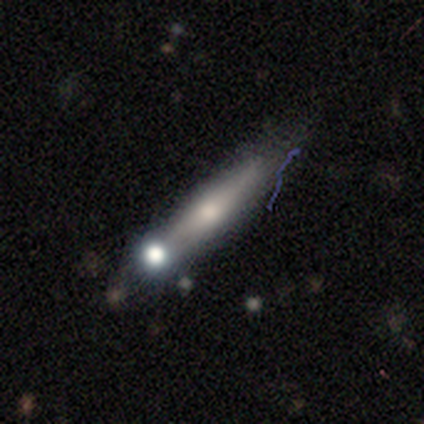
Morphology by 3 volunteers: A smooth galaxy with no disk features (67%) that is in between round and cigar-shaped (50%, tied with cigar-shaped).

Vote fractions:
- Smooth or featured? smooth: 67% / featured or disk: 33% / star or artifact: 0%
- How rounded? in between: 50% (tied) / cigar-shaped: 50% (tied) / round: 0%
- Merging? none: 100% / minor disturbance: 0% / major disturbance: 0% / merger: 0%